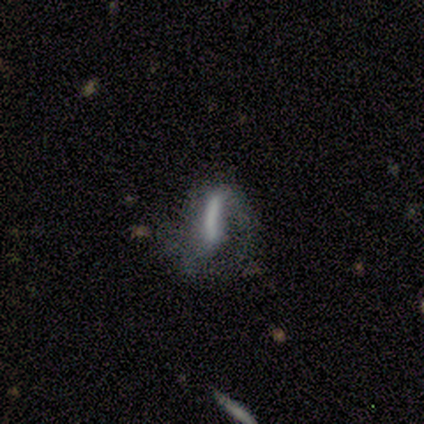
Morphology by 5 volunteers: A smooth galaxy with no disk features (60%) that is cigar-shaped (100%).

Vote fractions:
- Smooth or featured? smooth: 60% / featured or disk: 40% / star or artifact: 0%
- How rounded? cigar-shaped: 100% / round: 0% / in between: 0%
- Merging? major disturbance: 80% / minor disturbance: 20% / none: 0% / merger: 0%